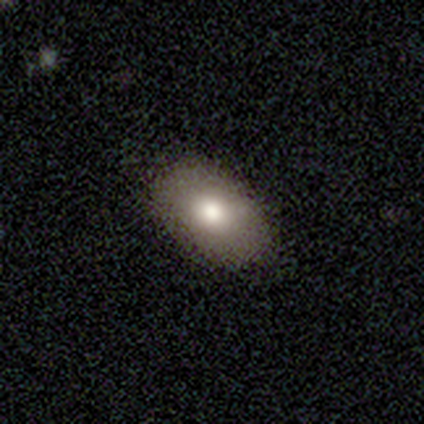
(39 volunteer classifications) Q: Smooth or featured?
A: smooth (72%); runner-up: star or artifact (15%)
Q: How rounded?
A: in between (93%); runner-up: round (7%)
Q: Merging?
A: none (82%); runner-up: minor disturbance (9%)